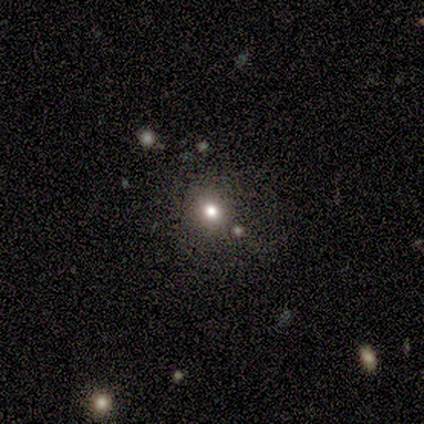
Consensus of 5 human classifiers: This is clearly a smooth galaxy (100%). How rounded: likely round (60%). Merging: clearly none (100%).